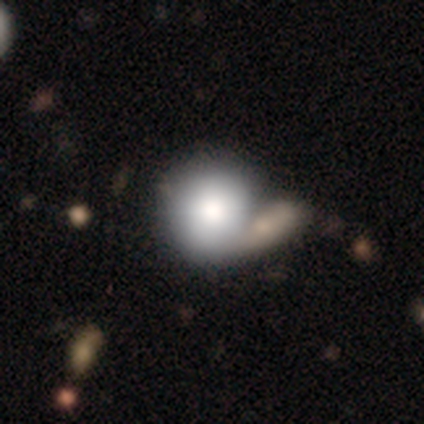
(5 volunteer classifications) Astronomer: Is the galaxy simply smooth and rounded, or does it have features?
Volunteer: smooth — 80%.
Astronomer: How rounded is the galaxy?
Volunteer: round — 100%.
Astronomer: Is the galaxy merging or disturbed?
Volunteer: minor disturbance — 60% (runner-up: merger, 40%).